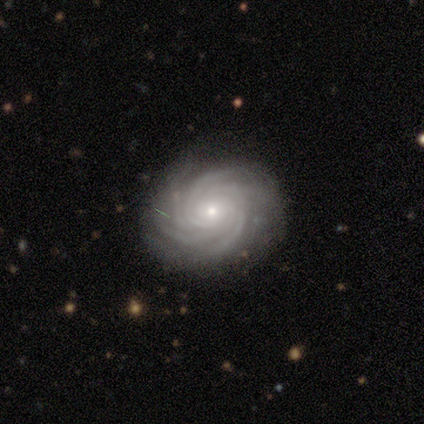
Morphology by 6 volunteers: Smooth or featured?
  - featured or disk: 100% *
  - smooth: 0%
  - star or artifact: 0%
Edge-on disk?
  - no: 100% *
  - yes: 0%
Bar?
  - no: 67% *
  - strong: 17%
  - weak: 17%
Spiral arms?
  - yes: 100% *
  - no: 0%
Spiral winding?
  - tight: 100% *
  - medium: 0%
  - loose: 0%
Spiral arm count?
  - more than 4: 33% * (tied)
  - can't tell: 33% * (tied)
  - 3: 17%
  - 4: 17%
  - 1: 0%
  - 2: 0%
Bulge size?
  - small: 67% *
  - moderate: 33%
  - dominant: 0%
  - large: 0%
  - none: 0%
Merging?
  - none: 83% *
  - major disturbance: 17%
  - minor disturbance: 0%
  - merger: 0%